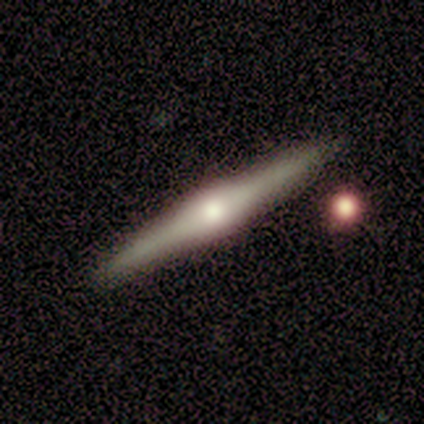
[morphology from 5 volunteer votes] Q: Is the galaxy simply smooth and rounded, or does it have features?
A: featured or disk — 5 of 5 (100%).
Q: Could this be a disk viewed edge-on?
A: yes — 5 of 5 (100%).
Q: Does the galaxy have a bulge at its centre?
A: rounded — 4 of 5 (80%).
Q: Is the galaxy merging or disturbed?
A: none — 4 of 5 (80%).